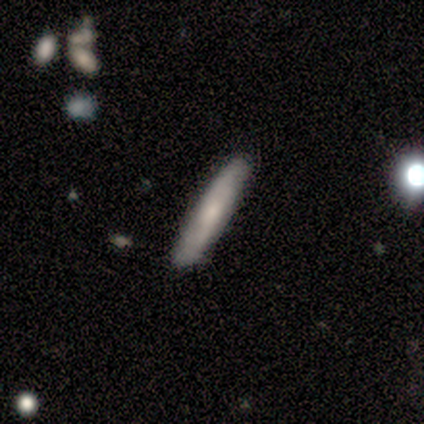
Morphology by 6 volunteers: Smooth or featured?
  - smooth: 50% * (tied)
  - featured or disk: 50% * (tied)
  - star or artifact: 0%
How rounded?
  - cigar-shaped: 100% *
  - round: 0%
  - in between: 0%
Merging?
  - none: 83% *
  - minor disturbance: 17%
  - major disturbance: 0%
  - merger: 0%